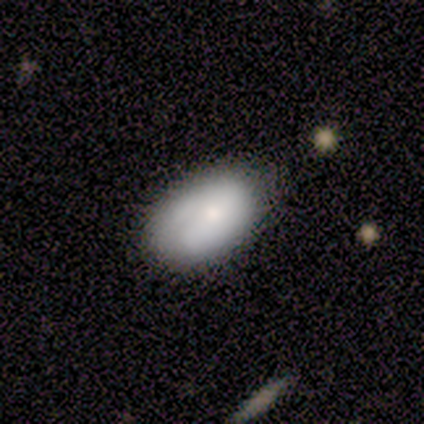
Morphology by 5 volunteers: Smooth or featured: smooth — 80% (star or artifact — 20%)
How rounded: in between — 75% (round — 25%)
Merging: minor disturbance — 75% (none — 25%)